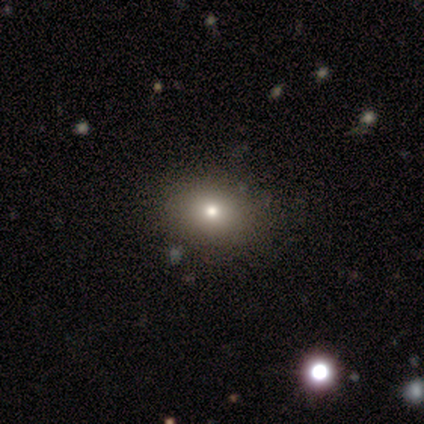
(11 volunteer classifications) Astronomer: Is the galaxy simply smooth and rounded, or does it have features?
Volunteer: smooth — 91%.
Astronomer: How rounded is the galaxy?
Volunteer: in between — 70%.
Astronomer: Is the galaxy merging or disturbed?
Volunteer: none — 82%.